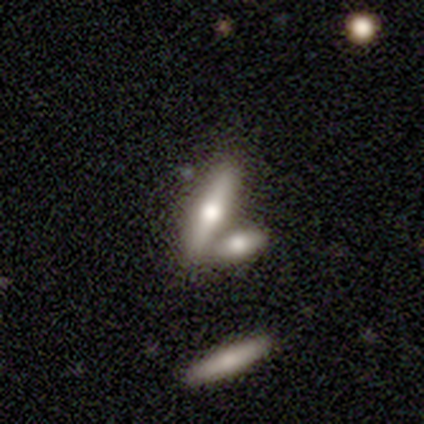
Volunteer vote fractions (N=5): This appears to be a smooth galaxy with no disk features (60%) that is cigar-shaped (100%). Merging: merger (80%).